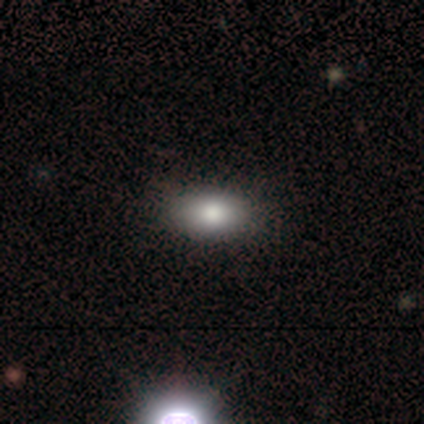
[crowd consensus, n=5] smooth_or_featured: smooth (p=0.80) [alt: featured or disk p=0.20]
how_rounded: in between (p=0.75) [alt: round p=0.25]
merging: none (p=0.80) [alt: minor disturbance p=0.20]